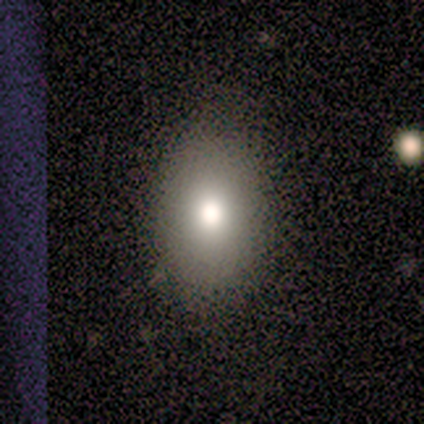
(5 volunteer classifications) A smooth galaxy with no disk features (100%) that is in between round and cigar-shaped (100%). Merging: none (100%).